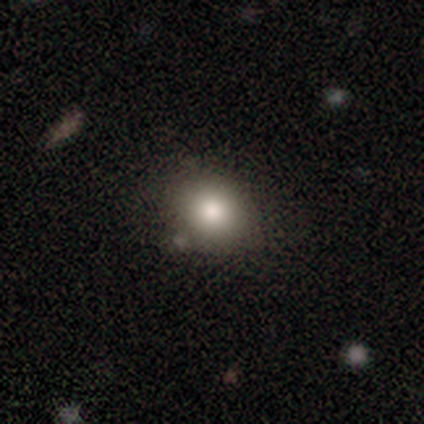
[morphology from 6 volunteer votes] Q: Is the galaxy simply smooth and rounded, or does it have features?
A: smooth — 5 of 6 (83%).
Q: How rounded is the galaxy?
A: round — 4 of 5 (80%).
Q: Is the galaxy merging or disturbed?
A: none — 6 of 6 (100%).